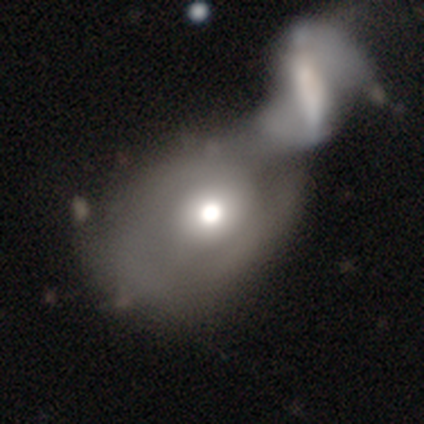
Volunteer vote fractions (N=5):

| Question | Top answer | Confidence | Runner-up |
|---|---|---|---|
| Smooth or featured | featured or disk | 80% | smooth (20%) |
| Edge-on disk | no | 100% | — |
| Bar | no | 100% | — |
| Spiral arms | yes | 50% | tied: no (50%) |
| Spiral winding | medium | 50% | tied: loose (50%) |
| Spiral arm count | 1 | 100% | — |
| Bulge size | large | 50% | tied: moderate (50%) |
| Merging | merger | 100% | — |